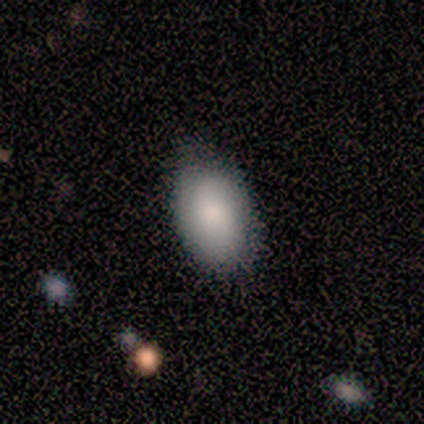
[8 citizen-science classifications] smooth-or-featured: smooth: 88% | featured or disk: 12% | star or artifact: 0%
  how-rounded: in between: 86% | round: 14% | cigar-shaped: 0%
  merging: none: 75% | minor disturbance: 25% | major disturbance: 0% | merger: 0%